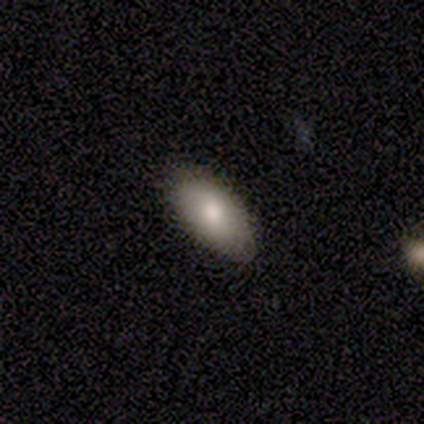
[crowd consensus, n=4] Consensus on every question: smooth or featured — smooth (100%); how rounded — in between (100%); merging — none (100%).